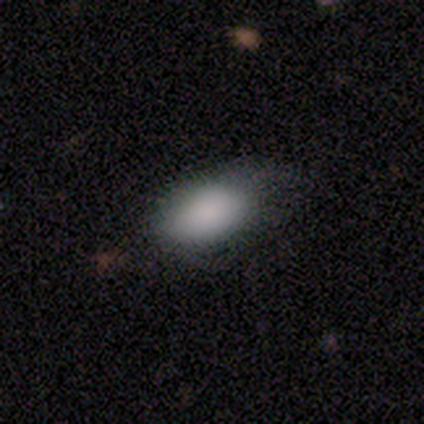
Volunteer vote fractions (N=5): Smooth or featured?
  - smooth: 100% *
  - featured or disk: 0%
  - star or artifact: 0%
How rounded?
  - in between: 100% *
  - round: 0%
  - cigar-shaped: 0%
Merging?
  - none: 80% *
  - minor disturbance: 20%
  - major disturbance: 0%
  - merger: 0%